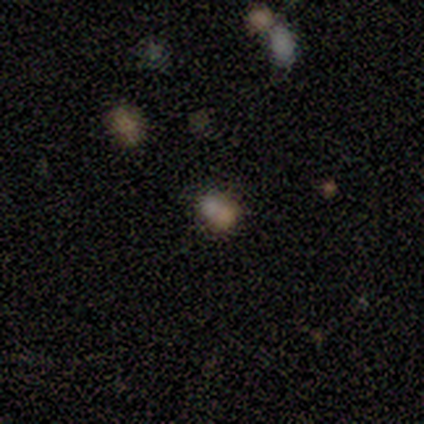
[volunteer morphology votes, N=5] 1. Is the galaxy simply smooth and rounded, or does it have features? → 60% star or artifact, 20% smooth, 20% featured or disk.